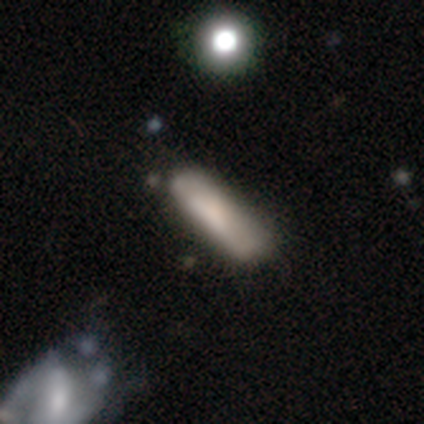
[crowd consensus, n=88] Smooth or featured? smooth (68%)
How rounded? cigar-shaped (80%)
Merging? none (65%)